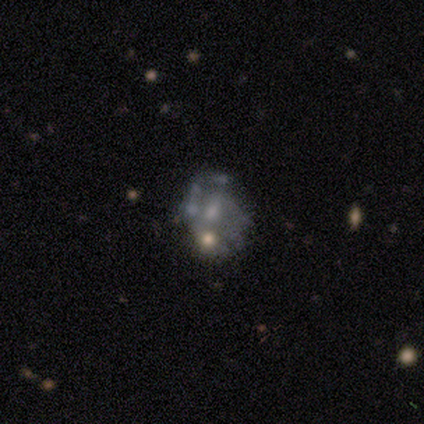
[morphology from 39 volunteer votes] Q: Smooth or featured?
A: featured or disk (62%); runner-up: star or artifact (21%)
Q: Edge-on disk?
A: no (100%)
Q: Bar?
A: no (67%); runner-up: weak (33%)
Q: Spiral arms?
A: no (67%); runner-up: yes (33%)
Q: Bulge size?
A: small (54%); runner-up: moderate (25%)
Q: Merging?
A: none (45%); runner-up: minor disturbance (26%)